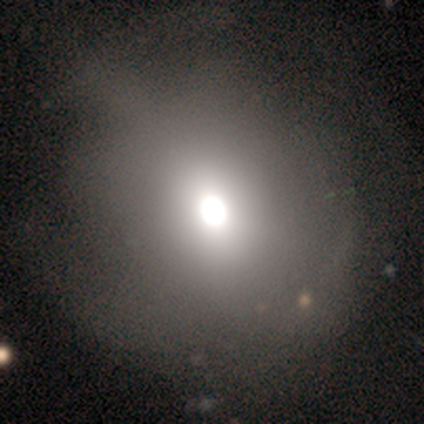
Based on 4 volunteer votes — star or artifact 50%, smooth 25%, featured or disk 25%.